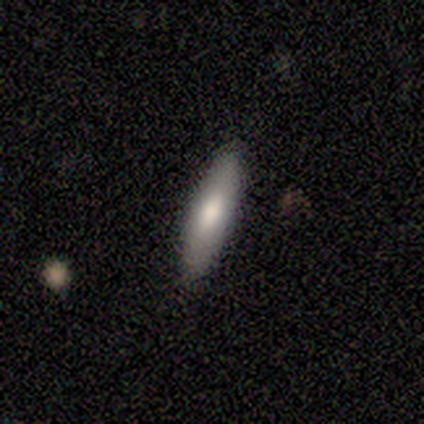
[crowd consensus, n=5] Volunteers were most divided on "how rounded" (2-way tie): in between: 50%, cigar-shaped: 50%, round: 0%. More confident: merging — none (100%); smooth or featured — smooth (80%).